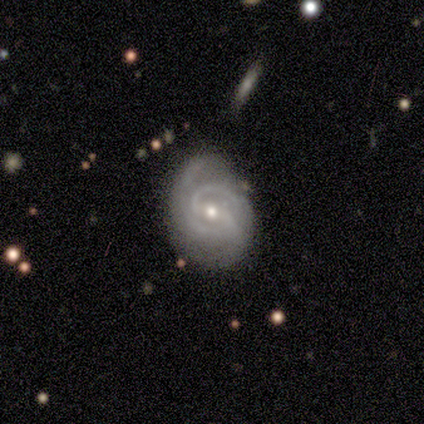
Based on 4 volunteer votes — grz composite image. It shows a featured or disk galaxy (75%) with no bar (67%), 2 (67%) medium (67%) spiral arms (100%) and a small central bulge (67%). Merging: none (100%).